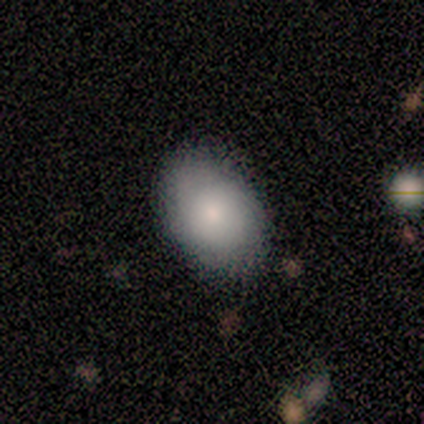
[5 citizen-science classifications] Overall: smooth (60%; featured or disk 40%). How rounded: in between (100%). Merging: none (80%).